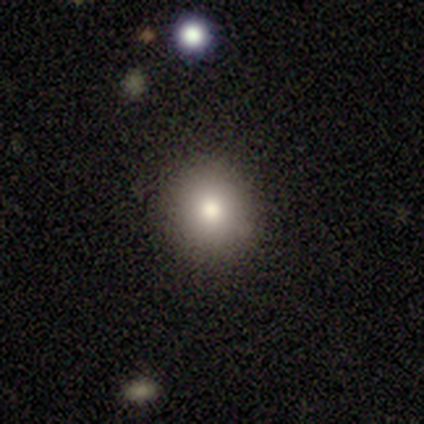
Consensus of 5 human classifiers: Smooth or featured? 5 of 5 (100%) said smooth. How rounded? 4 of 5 (80%) said round. Merging? 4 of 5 (80%) said none.